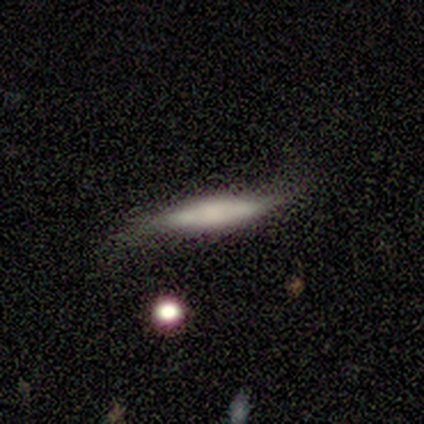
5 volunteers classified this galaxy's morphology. This appears to be a smooth galaxy with no disk features (80%) that is cigar-shaped (100%). Merging: minor disturbance (80%).